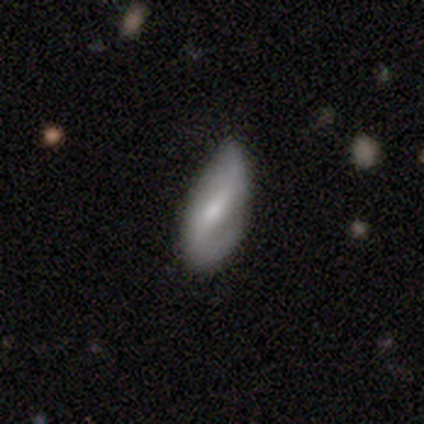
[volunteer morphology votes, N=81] A featured or disk galaxy (64%) with a weak bar (45%), 2 (87%) loose (58%) spiral arms (81%) and a small central bulge (49%).

Vote fractions:
- Smooth or featured? featured or disk: 64% / smooth: 27% / star or artifact: 9%
- Edge-on disk? no: 90% / yes: 10%
- Bar? weak: 45% / strong: 36% / no: 19%
- Spiral arms? yes: 81% / no: 19%
- Spiral winding? loose: 58% / medium: 26% / tight: 16%
- Spiral arm count? 2: 87% / 1: 13% / 3: 0% / 4: 0% / more than 4: 0% / can't tell: 0%
- Bulge size? small: 49% / moderate: 45% / large: 4% / none: 2% / dominant: 0%
- Merging? none: 58% / minor disturbance: 35% / major disturbance: 7% / merger: 0%